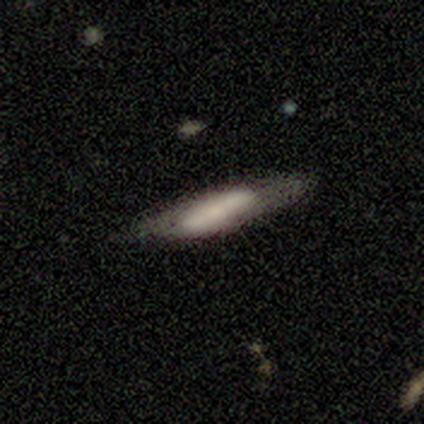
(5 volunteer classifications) Smooth or featured?
  - smooth: 60% *
  - featured or disk: 40%
  - star or artifact: 0%
How rounded?
  - cigar-shaped: 67% *
  - in between: 33%
  - round: 0%
Merging?
  - none: 60% *
  - minor disturbance: 20%
  - major disturbance: 20%
  - merger: 0%